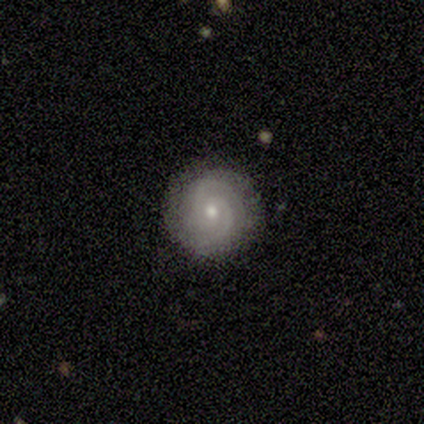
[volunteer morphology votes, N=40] type=featured or disk (82%); edge-on=no (100%); bar=no (79%); spiral arms=yes (94%); winding=tight (77%); arm count=2 (58%); bulge=small (58%); merging=none (92%).